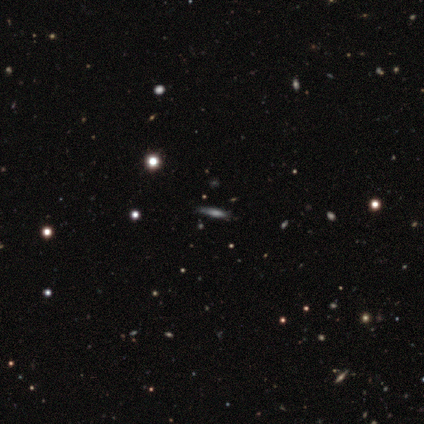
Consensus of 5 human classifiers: Smooth or featured?
  - smooth: 100% *
  - featured or disk: 0%
  - star or artifact: 0%
How rounded?
  - cigar-shaped: 80% *
  - in between: 20%
  - round: 0%
Merging?
  - none: 60% *
  - minor disturbance: 20%
  - major disturbance: 20%
  - merger: 0%